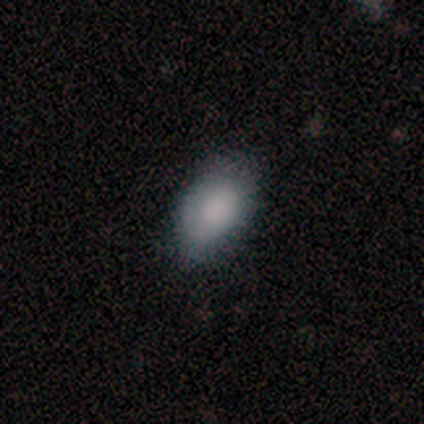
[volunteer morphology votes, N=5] Smooth or featured? 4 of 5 (80%) said smooth. How rounded? 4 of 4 (100%) said in between. Merging? 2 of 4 (50%, tied with minor disturbance) said none.